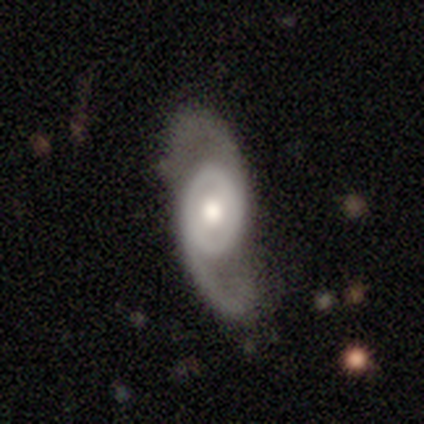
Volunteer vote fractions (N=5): smooth-or-featured: featured or disk: 100% | smooth: 0% | star or artifact: 0%
  disk-edge-on: no: 100% | yes: 0%
    bar: no: 60% | strong: 20% | weak: 20%
    has-spiral-arms: yes: 80% | no: 20%
      spiral-winding: tight: 50% (tied) | medium: 50% (tied) | loose: 0%
      spiral-arm-count: 2: 100% | 1: 0% | 3: 0% | 4: 0% | more than 4: 0% | can't tell: 0%
    bulge-size: moderate: 60% | large: 20% | small: 20% | dominant: 0% | none: 0%
  merging: none: 80% | minor disturbance: 20% | major disturbance: 0% | merger: 0%